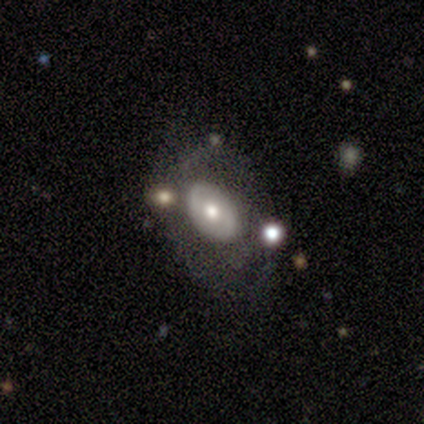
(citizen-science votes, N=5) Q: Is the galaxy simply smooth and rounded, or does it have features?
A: featured or disk — 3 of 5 (60%).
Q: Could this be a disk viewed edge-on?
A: no — 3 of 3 (100%).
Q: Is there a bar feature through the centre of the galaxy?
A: no — 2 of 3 (67%).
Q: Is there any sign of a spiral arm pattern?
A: yes — 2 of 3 (67%).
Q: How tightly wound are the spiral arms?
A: tight — 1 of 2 (50%, tied with loose).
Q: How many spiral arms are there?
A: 2 — 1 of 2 (50%, tied with can't tell).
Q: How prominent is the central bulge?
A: dominant — 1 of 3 (33%, tied with moderate and small).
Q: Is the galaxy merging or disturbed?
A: none — 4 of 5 (80%).